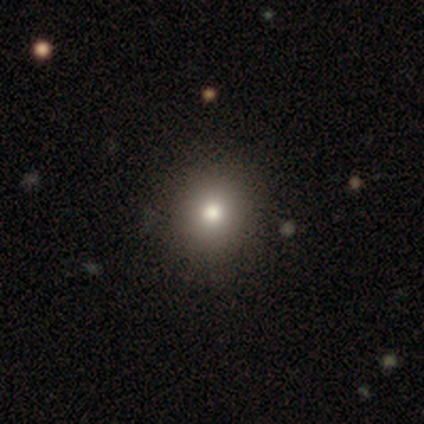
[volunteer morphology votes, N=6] A smooth galaxy with no disk features (67%) that is round (50%).

Vote fractions:
- Smooth or featured? smooth: 67% / star or artifact: 33% / featured or disk: 0%
- How rounded? round: 50% / in between: 25% / cigar-shaped: 25%
- Merging? none: 100% / minor disturbance: 0% / major disturbance: 0% / merger: 0%